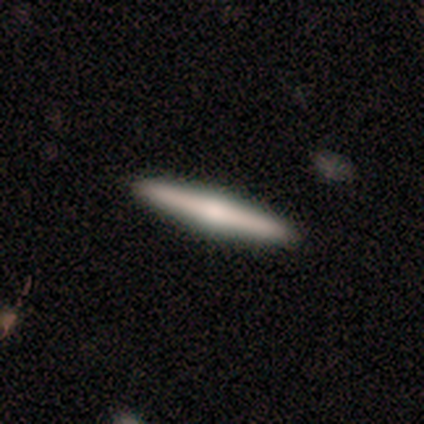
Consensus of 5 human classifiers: A smooth galaxy with no disk features (60%) that is cigar-shaped (100%). Merging: none (75%).